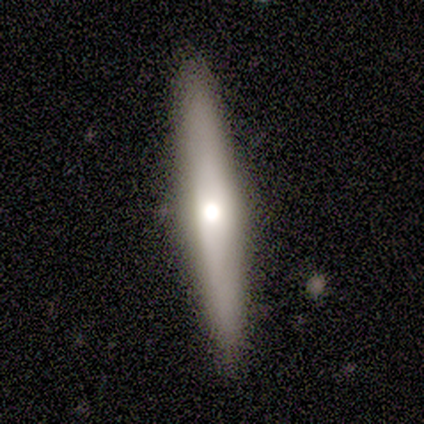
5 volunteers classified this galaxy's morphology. Smooth or featured: smooth — 60% (featured or disk — 40%)
How rounded: cigar-shaped — 100%
Merging: none — 60% (minor disturbance — 20%)